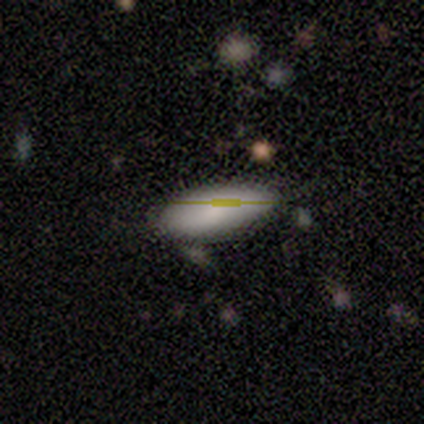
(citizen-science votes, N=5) Smooth or featured? 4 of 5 (80%) said smooth. How rounded? 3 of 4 (75%) said in between. Merging? 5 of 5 (100%) said none.